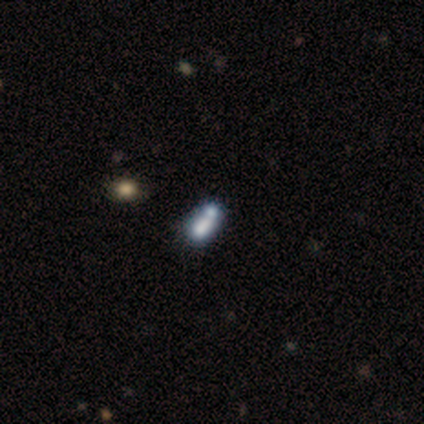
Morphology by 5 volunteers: This is marginally a smooth galaxy (40%, tied with featured or disk). How rounded: possibly round (50%, tied with in between). Merging: possibly none (50%, tied with merger).